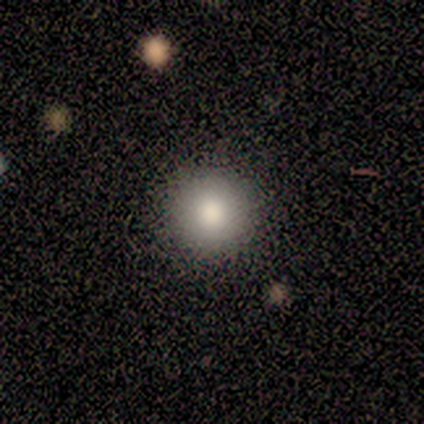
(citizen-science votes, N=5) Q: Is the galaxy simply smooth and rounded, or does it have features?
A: smooth — 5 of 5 (100%).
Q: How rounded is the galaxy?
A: round — 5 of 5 (100%).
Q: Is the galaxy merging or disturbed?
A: none — 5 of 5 (100%).